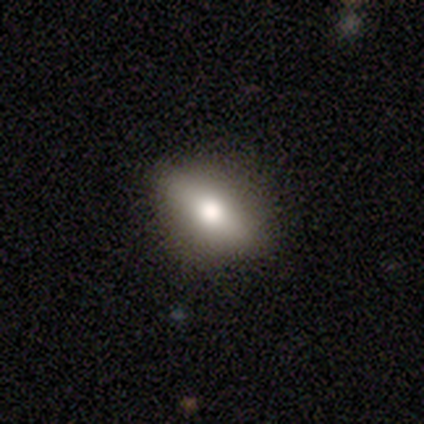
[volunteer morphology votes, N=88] Smooth or featured: smooth — 55% (featured or disk — 34%)
How rounded: in between — 73% (cigar-shaped — 19%)
Merging: none — 82% (minor disturbance — 10%)